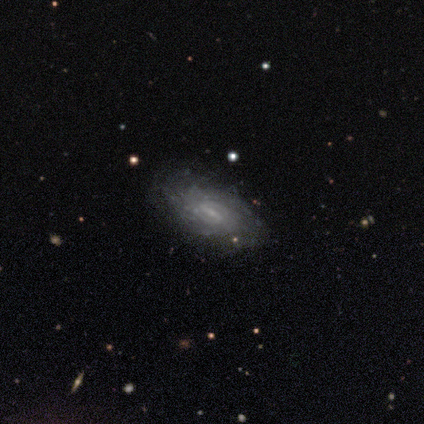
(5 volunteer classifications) Smooth or featured: featured or disk — 100%
Edge-on disk: no — 100%
Bar: strong — 40% (tied with weak — 40%)
Spiral arms: yes — 100%
Spiral winding: tight — 100%
Spiral arm count: 4 — 40% (tied with can't tell — 40%)
Bulge size: small — 80% (moderate — 20%)
Merging: none — 80% (minor disturbance — 20%)